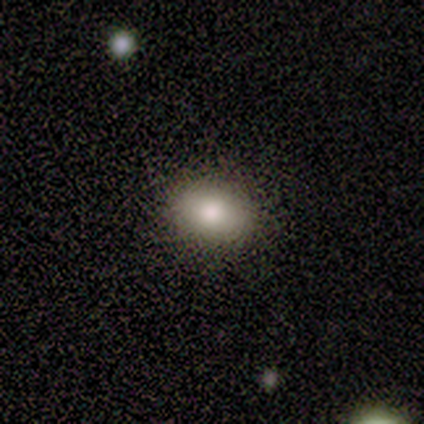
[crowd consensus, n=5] smooth-or-featured: smooth: 80% | featured or disk: 20% | star or artifact: 0%
  how-rounded: in between: 75% | round: 25% | cigar-shaped: 0%
  merging: none: 100% | minor disturbance: 0% | major disturbance: 0% | merger: 0%